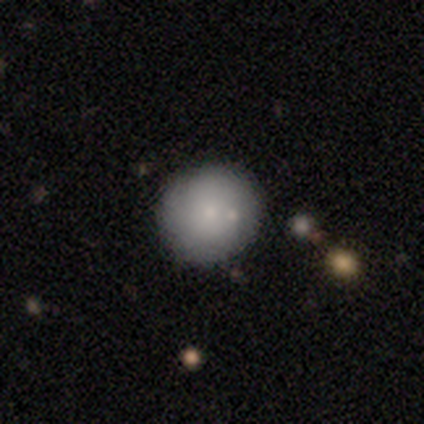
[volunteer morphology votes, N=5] Q: Smooth or featured?
A: smooth (100%)
Q: How rounded?
A: round (80%); runner-up: cigar-shaped (20%)
Q: Merging?
A: none (60%); runner-up: minor disturbance (40%)